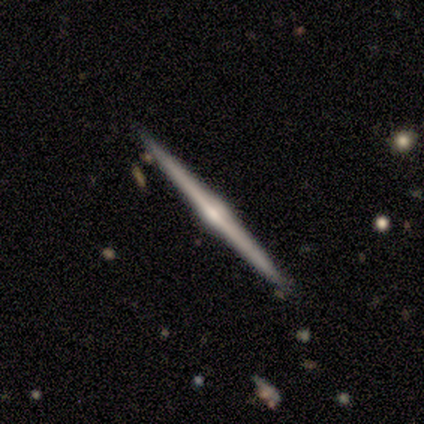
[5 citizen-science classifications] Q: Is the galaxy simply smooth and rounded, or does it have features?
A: featured or disk — 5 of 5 (100%).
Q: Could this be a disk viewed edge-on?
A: yes — 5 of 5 (100%).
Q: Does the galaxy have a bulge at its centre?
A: rounded — 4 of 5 (80%).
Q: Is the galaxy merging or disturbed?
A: none — 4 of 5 (80%).